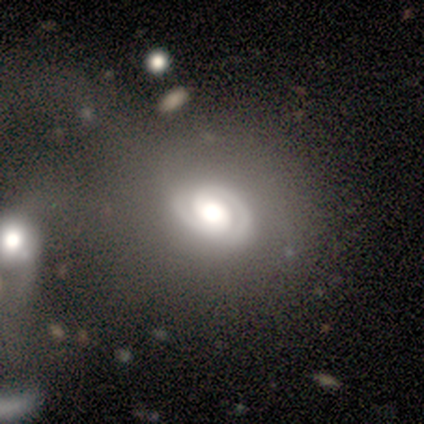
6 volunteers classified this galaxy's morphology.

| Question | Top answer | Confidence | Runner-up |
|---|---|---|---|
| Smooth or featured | featured or disk | 100% | — |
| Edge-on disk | no | 83% | yes (17%) |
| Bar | no | 80% | weak (20%) |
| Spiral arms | yes | 80% | no (20%) |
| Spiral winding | tight | 75% | medium (25%) |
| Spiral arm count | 2 | 75% | can't tell (25%) |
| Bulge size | large | 40% | tied: moderate (40%) |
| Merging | none | 33% | tied: minor disturbance (33%), major disturbance (33%) |